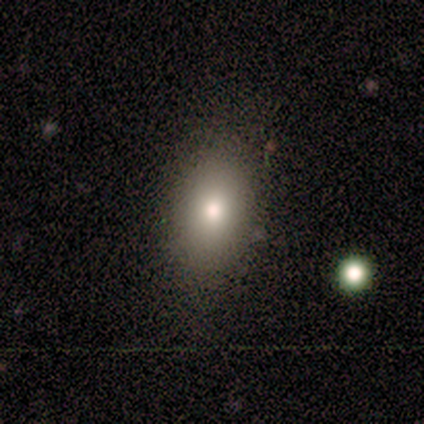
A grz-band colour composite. It shows a smooth galaxy with no disk features (60%) that is in between round and cigar-shaped (100%). Merging: none (75%).